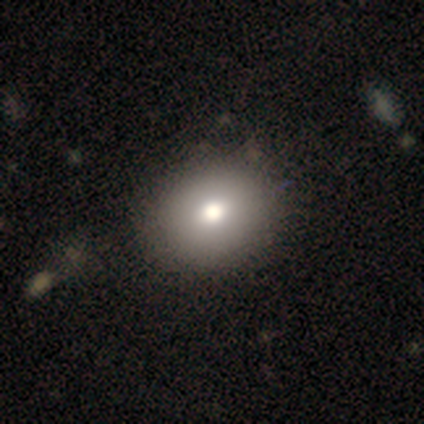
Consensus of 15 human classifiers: smooth_or_featured: smooth (p=0.73) [alt: star or artifact p=0.20]
how_rounded: round (p=0.55) [alt: in between p=0.45]
merging: none (p=0.75) [alt: minor disturbance p=0.08]